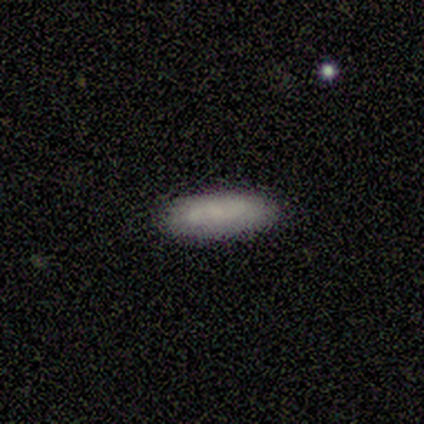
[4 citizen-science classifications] A smooth galaxy with no disk features (100%) that is in between round and cigar-shaped (50%, tied with cigar-shaped).

Vote fractions:
- Smooth or featured? smooth: 100% / featured or disk: 0% / star or artifact: 0%
- How rounded? in between: 50% (tied) / cigar-shaped: 50% (tied) / round: 0%
- Merging? none: 50% (tied) / minor disturbance: 50% (tied) / major disturbance: 0% / merger: 0%